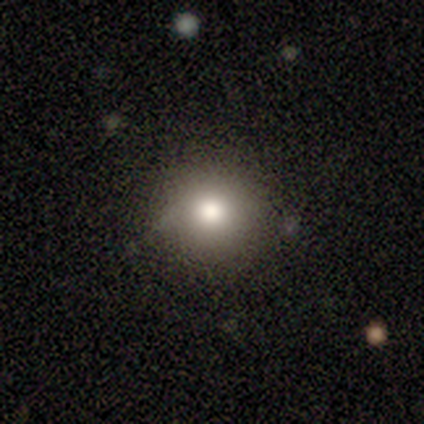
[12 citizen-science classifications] smooth 83%, featured or disk 8%, star or artifact 8%. Down the decision tree: how rounded — round (90%); merging — none (100%).